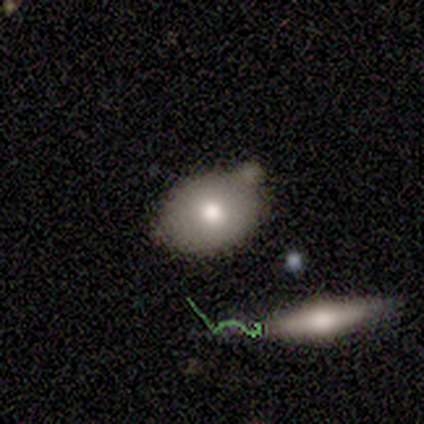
smooth-or-featured: smooth: 80% | star or artifact: 20% | featured or disk: 0%
  how-rounded: in between: 75% | round: 25% | cigar-shaped: 0%
  merging: none: 50% (tied) | minor disturbance: 50% (tied) | major disturbance: 0% | merger: 0%